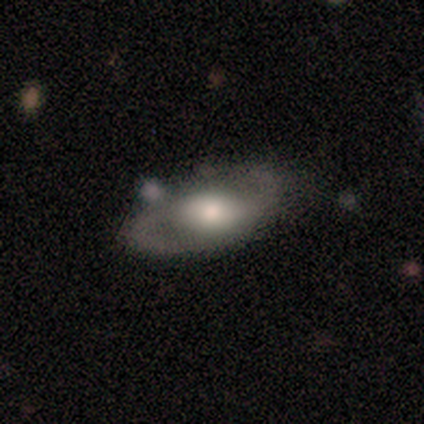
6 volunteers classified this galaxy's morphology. smooth_or_featured: featured or disk (p=1.00)
disk_edge_on: no (p=0.83) [alt: yes p=0.17]
bar: weak (p=1.00)
has_spiral_arms: yes (p=1.00)
spiral_winding: tight (p=0.40) [tied with: medium p=0.40]
spiral_arm_count: 2 (p=1.00)
bulge_size: large (p=0.40) [tied with: moderate p=0.40]
merging: none (p=0.67) [alt: minor disturbance p=0.17]